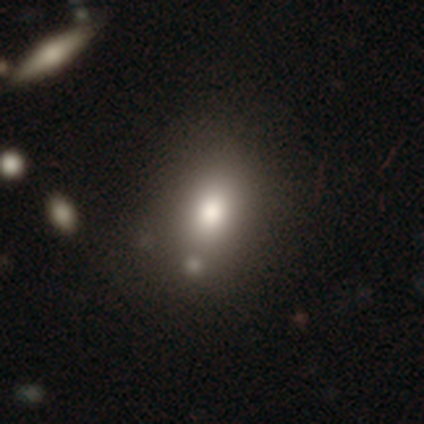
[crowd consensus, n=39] Q: Smooth or featured?
A: smooth (79%); runner-up: featured or disk (15%)
Q: How rounded?
A: in between (61%); runner-up: round (29%)
Q: Merging?
A: none (62%); runner-up: minor disturbance (22%)